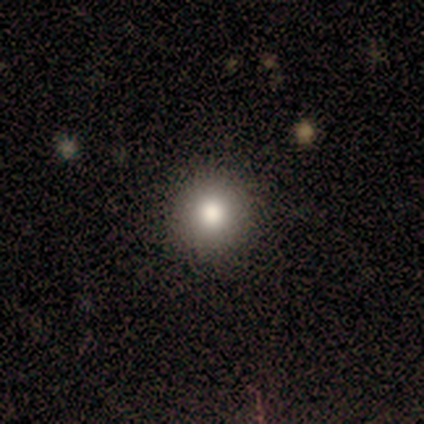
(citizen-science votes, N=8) smooth 75%, star or artifact 25%, featured or disk 0%. Down the decision tree: how rounded — round (100%); merging — none (100%).